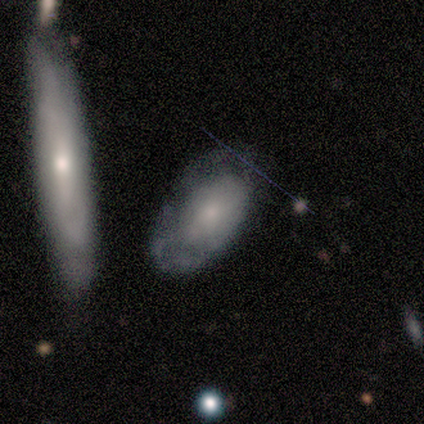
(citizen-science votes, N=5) Volunteers were most divided on "merging": minor disturbance: 60%, none: 20%, major disturbance: 20%, merger: 0%. More confident: how rounded — in between (100%); smooth or featured — smooth (80%).